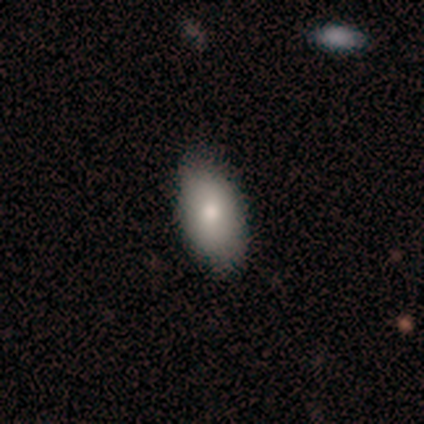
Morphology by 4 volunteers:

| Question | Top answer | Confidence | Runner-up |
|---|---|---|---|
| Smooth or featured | smooth | 50% | featured or disk (25%) |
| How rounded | in between | 100% | — |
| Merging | none | 100% | — |